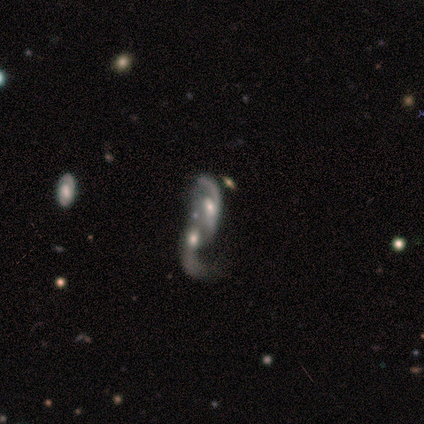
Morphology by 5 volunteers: Volunteers were most divided on "bar": strong: 50%, weak: 25%, no: 25%. More confident: smooth or featured — featured or disk (100%); spiral arms — yes (100%); edge-on disk — no (80%); merging — merger (80%); spiral winding — loose (75%); spiral arm count — 2 (75%); bulge size — moderate (50%).